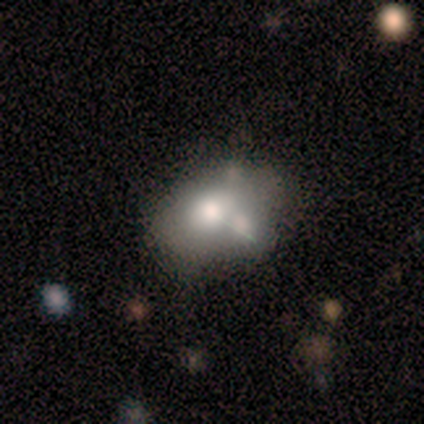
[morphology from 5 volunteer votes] This appears to be a featured or disk galaxy (40%, tied with star or artifact) with no bar (100%), no spiral arms (100%) and a large central bulge (50%, tied with moderate). Merging: none (67%).